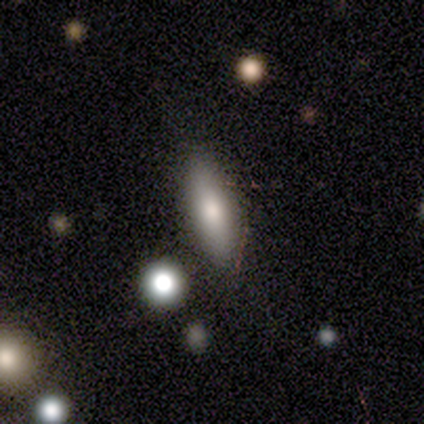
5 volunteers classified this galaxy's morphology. Smooth or featured?
  - smooth: 100% *
  - featured or disk: 0%
  - star or artifact: 0%
How rounded?
  - in between: 100% *
  - round: 0%
  - cigar-shaped: 0%
Merging?
  - none: 60% *
  - minor disturbance: 40%
  - major disturbance: 0%
  - merger: 0%